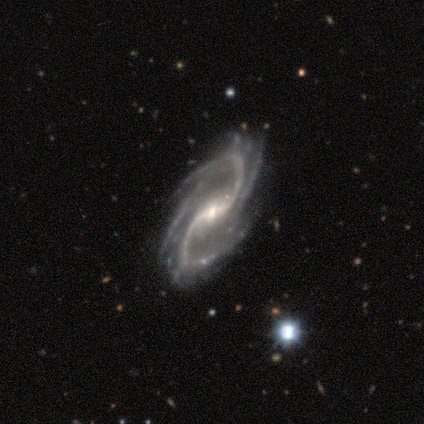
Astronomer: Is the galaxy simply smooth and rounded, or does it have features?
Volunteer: featured or disk — 100%.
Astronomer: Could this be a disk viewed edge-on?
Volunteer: no — 100%.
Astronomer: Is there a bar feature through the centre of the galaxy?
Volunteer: weak — 60%.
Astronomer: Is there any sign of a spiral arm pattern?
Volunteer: yes — 100%.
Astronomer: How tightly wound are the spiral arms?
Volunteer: medium — 60% (runner-up: loose, 40%).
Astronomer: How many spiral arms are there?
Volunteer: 2 — 80%.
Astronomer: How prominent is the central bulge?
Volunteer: small — 60% (runner-up: moderate, 40%).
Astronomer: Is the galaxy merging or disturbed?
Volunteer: none — 80%.